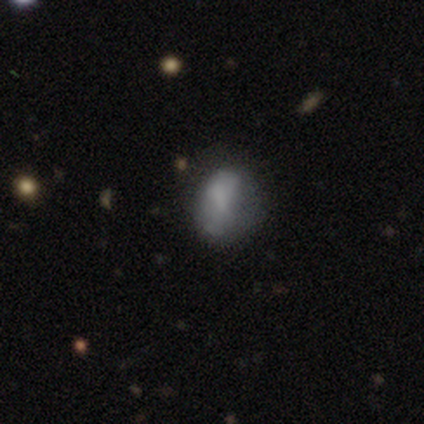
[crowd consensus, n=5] smooth-or-featured: smooth: 100% | featured or disk: 0% | star or artifact: 0%
  how-rounded: in between: 100% | round: 0% | cigar-shaped: 0%
  merging: minor disturbance: 80% | major disturbance: 20% | none: 0% | merger: 0%